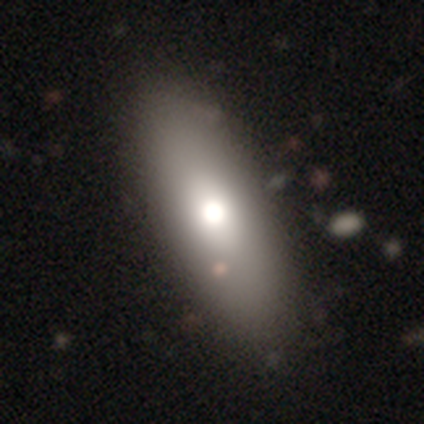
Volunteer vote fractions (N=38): Overall: smooth (61%; featured or disk 32%). How rounded: in between (74%). Merging: none (60%).